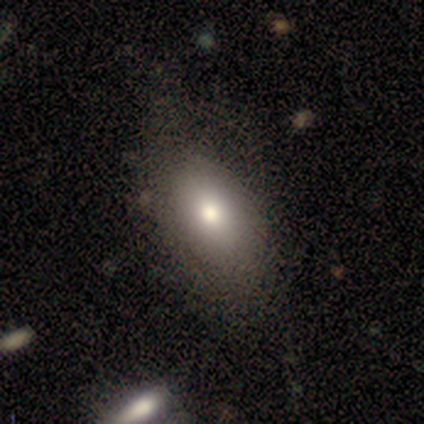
Q: Smooth or featured?
A: smooth (100%)
Q: How rounded?
A: in between (100%)
Q: Merging?
A: none (80%); runner-up: minor disturbance (20%)